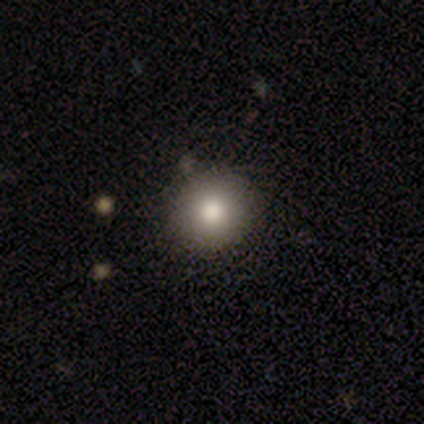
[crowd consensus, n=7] This appears to be a smooth galaxy with no disk features (86%) that is round (100%). Merging: none (83%).